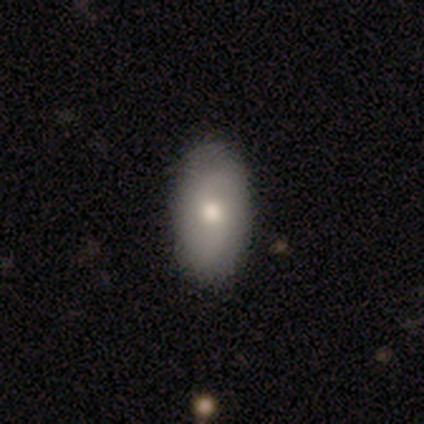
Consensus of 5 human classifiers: A smooth galaxy with no disk features (100%) that is in between round and cigar-shaped (80%). Merging: none (60%).